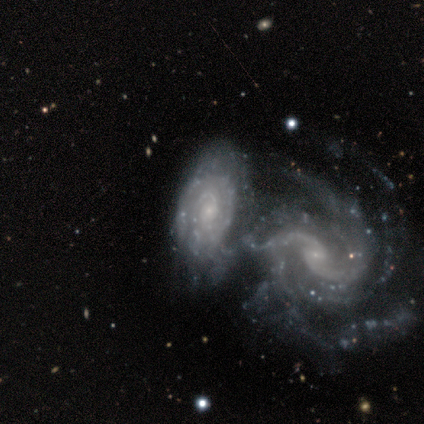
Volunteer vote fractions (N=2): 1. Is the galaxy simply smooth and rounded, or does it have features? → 100% featured or disk, 0% smooth, 0% star or artifact.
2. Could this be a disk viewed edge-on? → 100% no, 0% yes.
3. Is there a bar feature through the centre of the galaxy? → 50% weak (tied), 50% no (tied), 0% strong.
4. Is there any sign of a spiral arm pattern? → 100% yes, 0% no.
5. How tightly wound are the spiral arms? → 50% tight (tied), 50% medium (tied), 0% loose.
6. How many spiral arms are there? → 100% can't tell, 0% 1, 0% 2, 0% 3, 0% 4, 0% more than 4.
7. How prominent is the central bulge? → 100% small, 0% dominant, 0% large, 0% moderate, 0% none.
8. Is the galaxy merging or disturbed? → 100% merger, 0% none, 0% minor disturbance, 0% major disturbance.